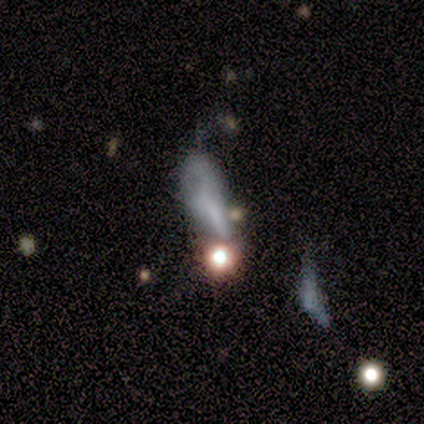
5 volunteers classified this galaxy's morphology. smooth 60%, featured or disk 20%, star or artifact 20%. Down the decision tree: how rounded — cigar-shaped (67%); merging — major disturbance (50%).